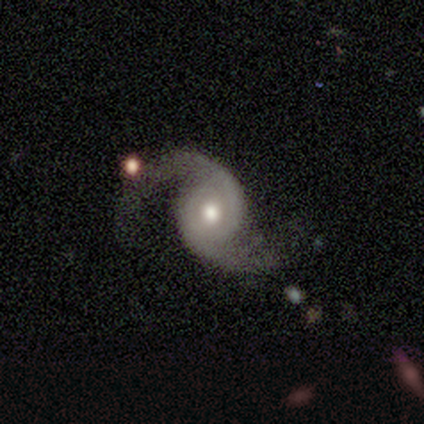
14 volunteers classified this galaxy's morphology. Smooth or featured?
  - featured or disk: 100% *
  - smooth: 0%
  - star or artifact: 0%
Edge-on disk?
  - no: 100% *
  - yes: 0%
Bar?
  - no: 71% *
  - weak: 21%
  - strong: 7%
Spiral arms?
  - yes: 100% *
  - no: 0%
Spiral winding?
  - loose: 43% *
  - medium: 36%
  - tight: 21%
Spiral arm count?
  - 2: 100% *
  - 1: 0%
  - 3: 0%
  - 4: 0%
  - more than 4: 0%
  - can't tell: 0%
Bulge size?
  - moderate: 71% *
  - large: 14%
  - small: 14%
  - dominant: 0%
  - none: 0%
Merging?
  - none: 64% *
  - minor disturbance: 21%
  - major disturbance: 14%
  - merger: 0%